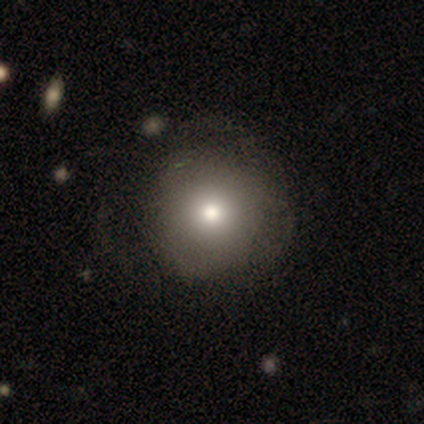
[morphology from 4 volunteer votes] Smooth or featured? smooth (50%, tied with star or artifact)
How rounded? round (100%)
Merging? none (100%)